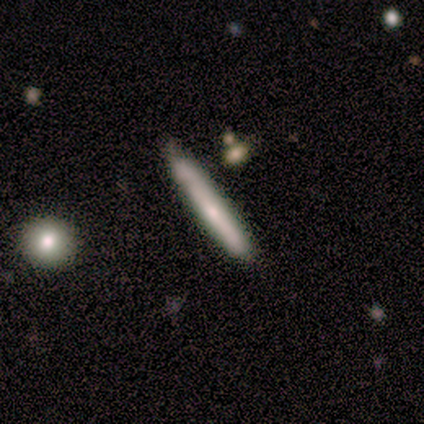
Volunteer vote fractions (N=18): This appears to be a smooth galaxy with no disk features (72%) that is cigar-shaped (100%). Merging: none (72%).